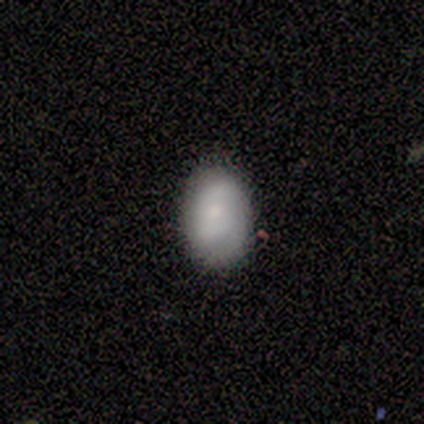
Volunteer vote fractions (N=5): Smooth or featured? 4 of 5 (80%) said smooth. How rounded? 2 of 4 (50%) said in between. Merging? 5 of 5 (100%) said none.